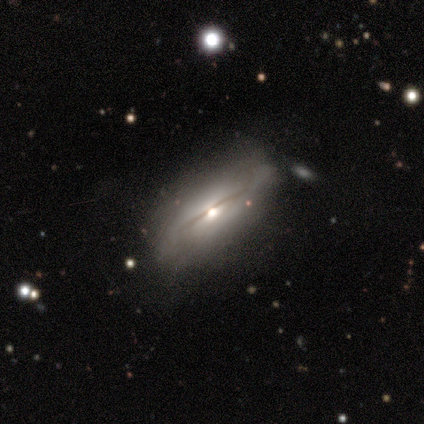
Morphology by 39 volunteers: featured or disk 56%, smooth 41%, star or artifact 3%. Down the decision tree: edge-on disk — yes (59%); edge-on bulge — rounded (85%); merging — none (58%).